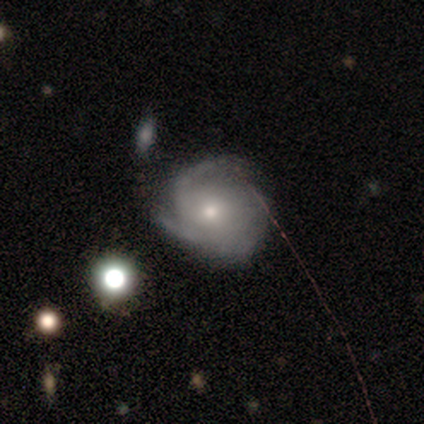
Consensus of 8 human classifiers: featured or disk 88%, smooth 12%, star or artifact 0%. Down the decision tree: edge-on disk — no (86%); bar — no (50%); spiral arms — yes (100%); spiral arm count — 2 (67%); spiral winding — tight (50%); bulge size — small (67%); merging — none (62%).